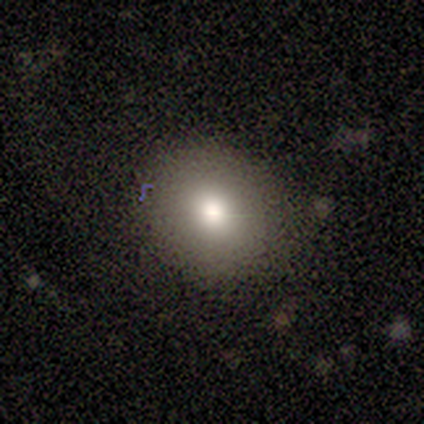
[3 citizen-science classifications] smooth 67%, featured or disk 33%, star or artifact 0%. Down the decision tree: how rounded — round (50%, tied with in between); merging — none (67%).